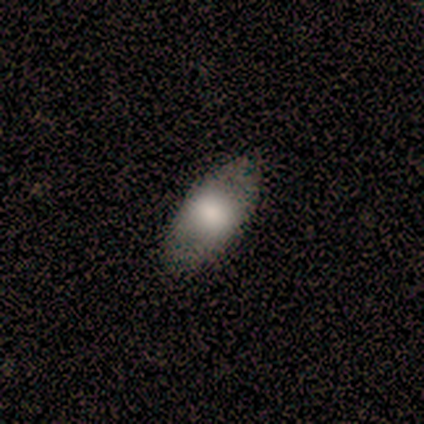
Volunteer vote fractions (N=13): Overall: smooth (92%). How rounded: in between (92%). Merging: none (92%).